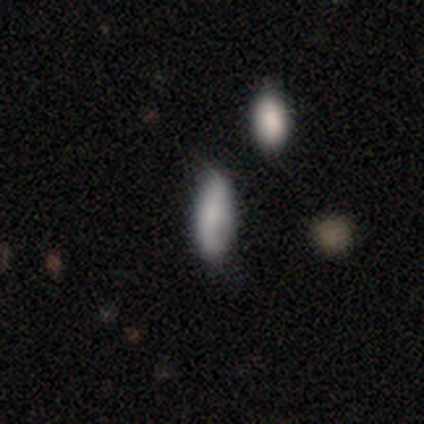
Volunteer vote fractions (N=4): smooth 50%, featured or disk 25%, star or artifact 25%. Down the decision tree: how rounded — in between (100%); merging — none (67%).